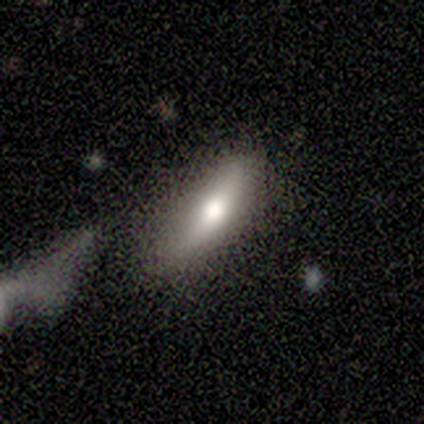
smooth_or_featured: smooth (p=0.80) [alt: featured or disk p=0.20]
how_rounded: in between (p=0.50) [tied with: cigar-shaped p=0.50]
merging: none (p=1.00)